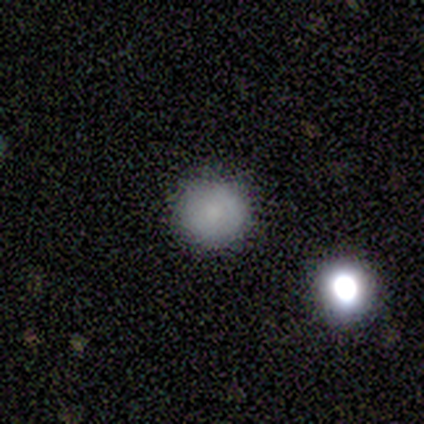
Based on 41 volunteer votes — Smooth or featured? 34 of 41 (83%) said smooth. How rounded? 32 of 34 (94%) said round. Merging? 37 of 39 (95%) said none.